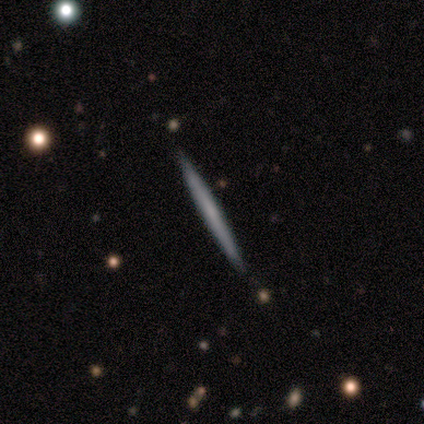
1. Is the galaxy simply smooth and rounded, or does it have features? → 60% featured or disk, 40% smooth, 0% star or artifact.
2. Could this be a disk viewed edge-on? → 100% yes, 0% no.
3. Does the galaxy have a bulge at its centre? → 100% none, 0% boxy, 0% rounded.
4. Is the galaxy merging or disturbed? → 100% none, 0% minor disturbance, 0% major disturbance, 0% merger.